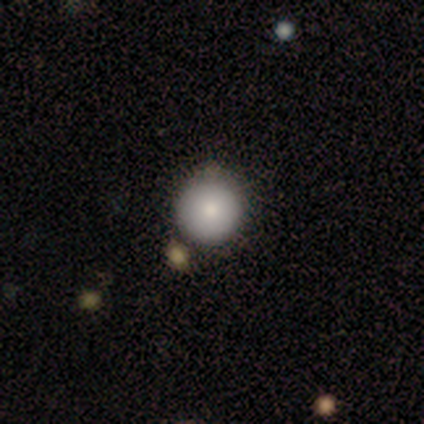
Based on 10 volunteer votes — This is clearly a smooth galaxy (100%). How rounded: clearly round (100%). Merging: likely none (60%).